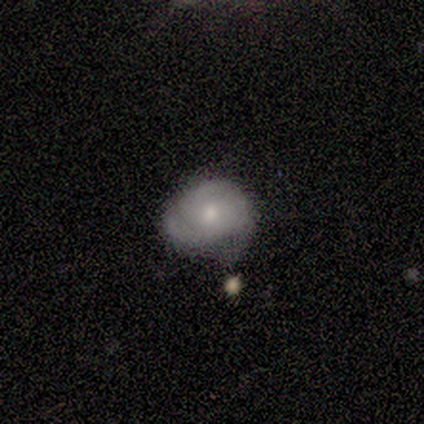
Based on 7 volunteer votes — Smooth or featured? 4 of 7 (57%) said featured or disk. Edge-on disk? 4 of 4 (100%) said no. Bar? 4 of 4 (100%) said no. Spiral arms? 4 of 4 (100%) said yes. Spiral winding? 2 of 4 (50%) said tight. Spiral arm count? 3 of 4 (75%) said 3. Bulge size? 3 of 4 (75%) said moderate. Merging? 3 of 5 (60%) said minor disturbance.